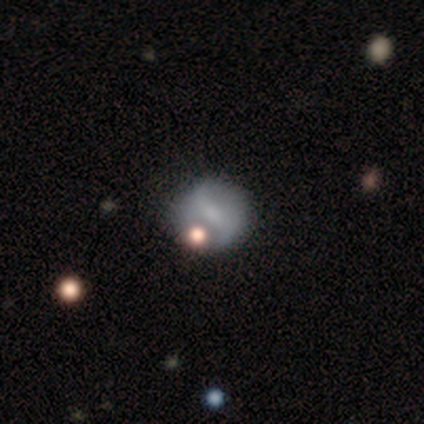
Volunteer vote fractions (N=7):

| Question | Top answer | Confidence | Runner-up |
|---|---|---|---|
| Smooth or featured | featured or disk | 57% | smooth (29%) |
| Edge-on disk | no | 100% | — |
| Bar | no | 75% | strong (25%) |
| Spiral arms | yes | 50% | tied: no (50%) |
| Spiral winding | tight | 50% | tied: loose (50%) |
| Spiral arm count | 2 | 100% | — |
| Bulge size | none | 50% | moderate (25%) |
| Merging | none | 100% | — |